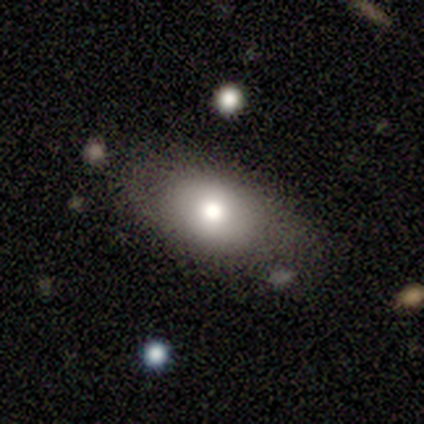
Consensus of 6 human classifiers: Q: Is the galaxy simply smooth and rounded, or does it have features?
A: featured or disk — 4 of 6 (67%).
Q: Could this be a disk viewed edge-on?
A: no — 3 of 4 (75%).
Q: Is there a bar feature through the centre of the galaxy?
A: no — 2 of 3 (67%).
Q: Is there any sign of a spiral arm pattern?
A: no — 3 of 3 (100%).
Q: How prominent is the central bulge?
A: moderate — 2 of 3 (67%).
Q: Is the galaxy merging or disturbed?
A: none — 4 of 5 (80%).